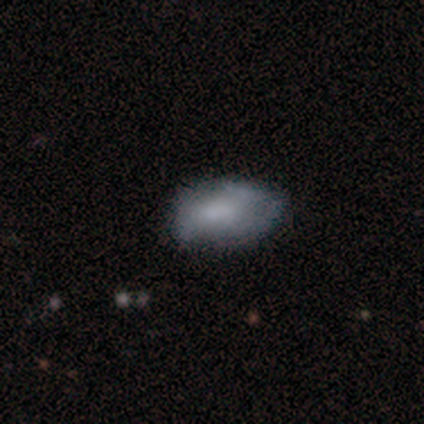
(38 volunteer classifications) Smooth or featured: smooth — 61% (featured or disk — 32%)
How rounded: in between — 96% (cigar-shaped — 4%)
Merging: none — 66% (minor disturbance — 26%)